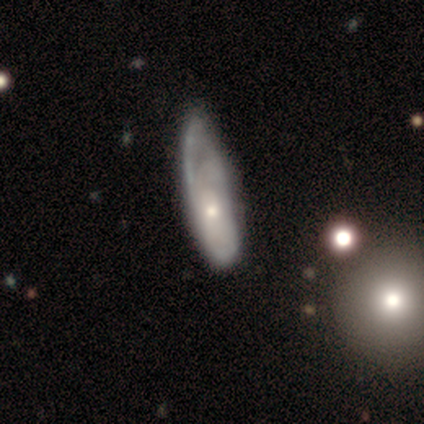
featured or disk 80%, smooth 15%, star or artifact 5%. Down the decision tree: edge-on disk — no (97%); bar — no (94%); spiral arms — yes (75%); spiral arm count — can't tell (62%); spiral winding — tight (46%); bulge size — moderate (50%, tied with small); merging — minor disturbance (38%).